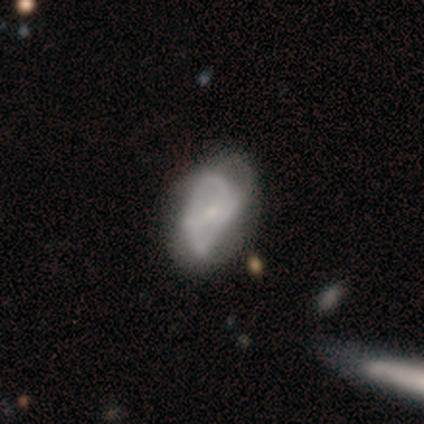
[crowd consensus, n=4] Smooth or featured: smooth — 50% (tied with featured or disk — 50%)
How rounded: in between — 100%
Merging: major disturbance — 75% (none — 25%)